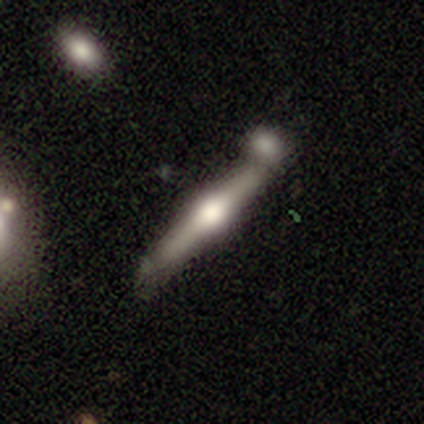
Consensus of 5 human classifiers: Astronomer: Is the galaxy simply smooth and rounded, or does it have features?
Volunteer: featured or disk — 80%.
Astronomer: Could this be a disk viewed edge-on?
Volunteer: yes — 100%.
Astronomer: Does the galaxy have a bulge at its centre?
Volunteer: rounded — 100%.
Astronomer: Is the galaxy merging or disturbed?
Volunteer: none — 40%, tied with merger at 40%.